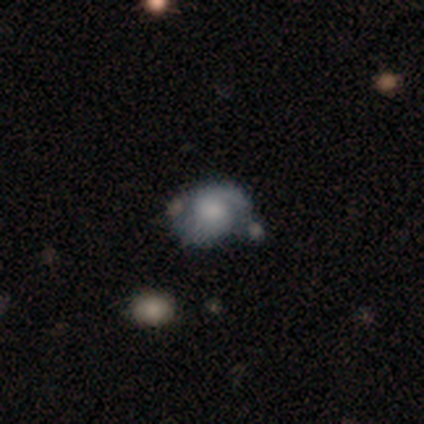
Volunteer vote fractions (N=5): Volunteers were most divided on "bulge size" (4-way tie): large: 25%, moderate: 25%, small: 25%, none: 25%, dominant: 0%; "merging" (2-way tie): none: 40%, merger: 40%, minor disturbance: 20%, major disturbance: 0%. More confident: edge-on disk — no (100%); bar — no (100%); spiral arm count — 2 (100%); smooth or featured — featured or disk (80%); spiral arms — yes (75%); spiral winding — medium (67%).